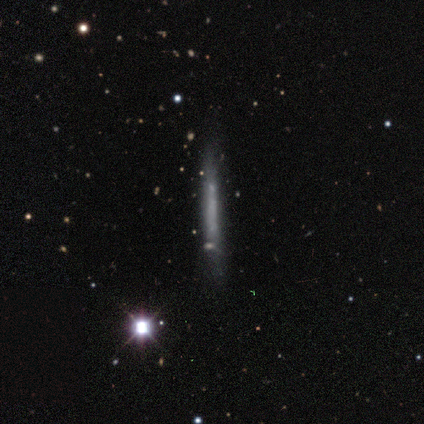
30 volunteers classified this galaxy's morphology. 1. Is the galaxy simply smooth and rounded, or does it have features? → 47% featured or disk, 37% smooth, 17% star or artifact.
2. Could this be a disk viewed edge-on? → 100% yes, 0% no.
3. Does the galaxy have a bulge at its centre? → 100% none, 0% boxy, 0% rounded.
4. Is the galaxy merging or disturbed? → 44% none, 32% minor disturbance, 12% major disturbance, 12% merger.